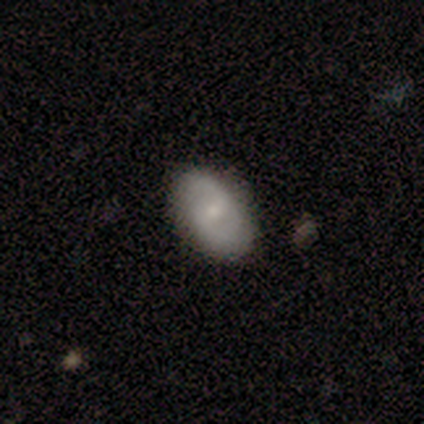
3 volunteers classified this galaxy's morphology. A smooth galaxy with no disk features (67%) that is round (50%, tied with in between). Merging: none (100%).